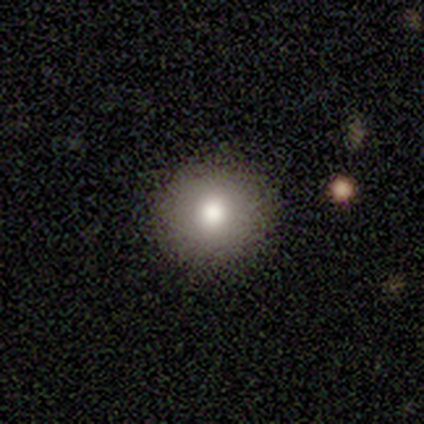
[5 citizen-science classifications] smooth-or-featured: smooth: 60% | featured or disk: 40% | star or artifact: 0%
  how-rounded: round: 67% | in between: 33% | cigar-shaped: 0%
  merging: none: 100% | minor disturbance: 0% | major disturbance: 0% | merger: 0%